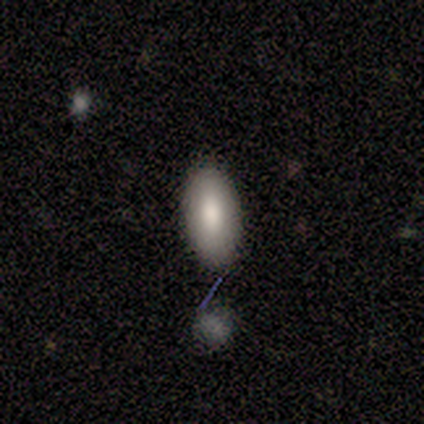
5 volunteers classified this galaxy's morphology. Smooth or featured: smooth — 100%
How rounded: in between — 100%
Merging: none — 100%